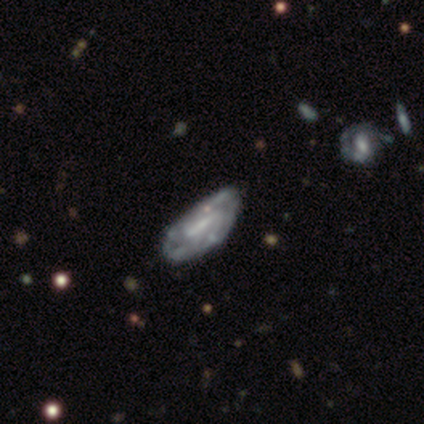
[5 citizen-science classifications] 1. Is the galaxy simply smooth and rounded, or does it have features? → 100% featured or disk, 0% smooth, 0% star or artifact.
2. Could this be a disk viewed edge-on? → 100% no, 0% yes.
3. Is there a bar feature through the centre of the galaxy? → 40% weak (tied), 40% no (tied), 20% strong.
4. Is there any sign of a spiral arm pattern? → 100% yes, 0% no.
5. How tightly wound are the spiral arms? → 60% tight, 40% medium, 0% loose.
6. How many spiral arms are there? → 60% can't tell, 20% 1, 20% 3, 0% 2, 0% 4, 0% more than 4.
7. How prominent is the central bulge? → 80% small, 20% large, 0% dominant, 0% moderate, 0% none.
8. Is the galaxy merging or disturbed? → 60% none, 20% minor disturbance, 20% major disturbance, 0% merger.